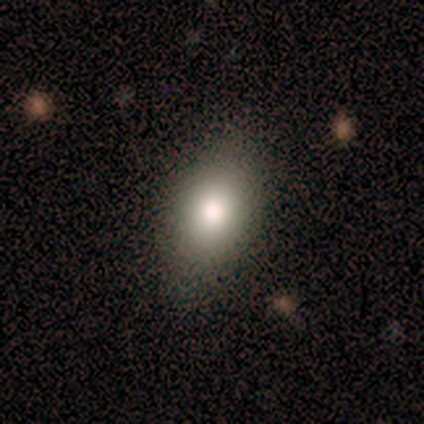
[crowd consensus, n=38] Q: Smooth or featured?
A: smooth (84%); runner-up: star or artifact (11%)
Q: How rounded?
A: in between (91%); runner-up: round (9%)
Q: Merging?
A: none (82%); runner-up: minor disturbance (15%)